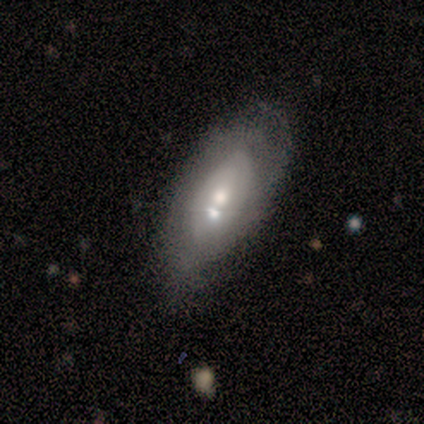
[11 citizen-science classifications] A featured or disk galaxy (45%) with no bar (50%), 2 (50%, tied with 3) tight (100%) spiral arms (50%, tied with no) and a moderate central bulge (75%). Merging: merger (38%).